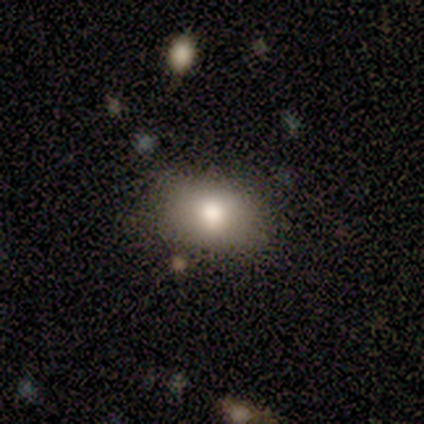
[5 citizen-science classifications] Q: Smooth or featured?
A: smooth (100%)
Q: How rounded?
A: in between (100%)
Q: Merging?
A: none (80%); runner-up: minor disturbance (20%)